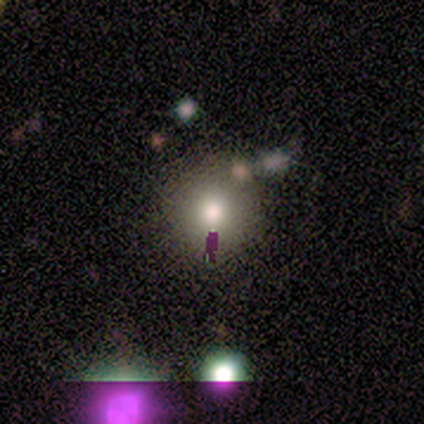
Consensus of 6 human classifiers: Smooth or featured? 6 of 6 (100%) said smooth. How rounded? 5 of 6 (83%) said round. Merging? 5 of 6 (83%) said none.